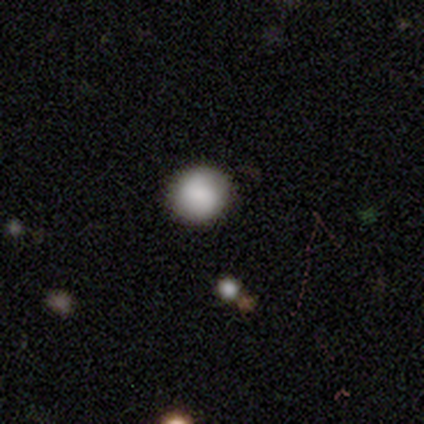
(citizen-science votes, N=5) Smooth or featured?
  - smooth: 60% *
  - featured or disk: 20%
  - star or artifact: 20%
How rounded?
  - in between: 67% *
  - round: 33%
  - cigar-shaped: 0%
Merging?
  - none: 100% *
  - minor disturbance: 0%
  - major disturbance: 0%
  - merger: 0%